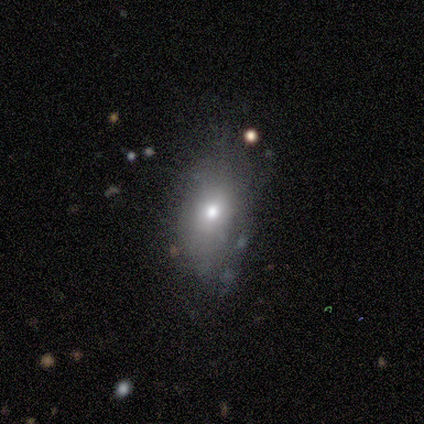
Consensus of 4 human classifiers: Q: Smooth or featured?
A: smooth (50%); tied with: featured or disk (50%)
Q: How rounded?
A: round (50%); tied with: in between (50%)
Q: Merging?
A: none (75%); runner-up: merger (25%)